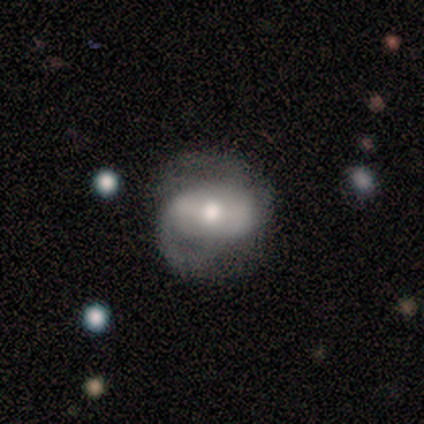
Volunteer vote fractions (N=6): Smooth or featured?
  - featured or disk: 100% *
  - smooth: 0%
  - star or artifact: 0%
Edge-on disk?
  - no: 100% *
  - yes: 0%
Bar?
  - weak: 50% *
  - no: 33%
  - strong: 17%
Spiral arms?
  - yes: 100% *
  - no: 0%
Spiral winding?
  - medium: 67% *
  - loose: 33%
  - tight: 0%
Spiral arm count?
  - 2: 67% *
  - 3: 17%
  - can't tell: 17%
  - 1: 0%
  - 4: 0%
  - more than 4: 0%
Bulge size?
  - moderate: 50% *
  - small: 33%
  - large: 17%
  - dominant: 0%
  - none: 0%
Merging?
  - none: 50% * (tied)
  - minor disturbance: 50% * (tied)
  - major disturbance: 0%
  - merger: 0%